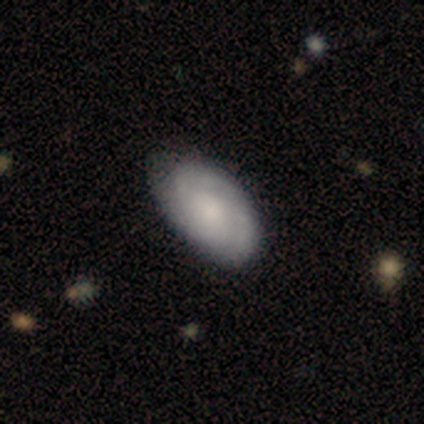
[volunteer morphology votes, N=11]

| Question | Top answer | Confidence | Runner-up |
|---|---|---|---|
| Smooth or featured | featured or disk | 64% | smooth (36%) |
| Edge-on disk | no | 100% | — |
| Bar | no | 100% | — |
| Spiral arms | yes | 100% | — |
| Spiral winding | tight | 100% | — |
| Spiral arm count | can't tell | 43% | 2 (29%) |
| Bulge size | small | 86% | moderate (14%) |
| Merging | none | 91% | major disturbance (9%) |